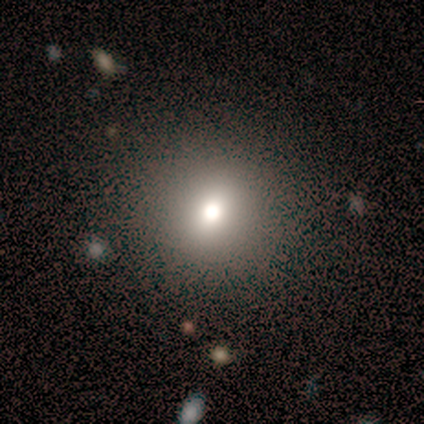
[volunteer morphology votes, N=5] A smooth galaxy with no disk features (60%) that is round (100%).

Vote fractions:
- Smooth or featured? smooth: 60% / featured or disk: 20% / star or artifact: 20%
- How rounded? round: 100% / in between: 0% / cigar-shaped: 0%
- Merging? none: 75% / major disturbance: 25% / minor disturbance: 0% / merger: 0%